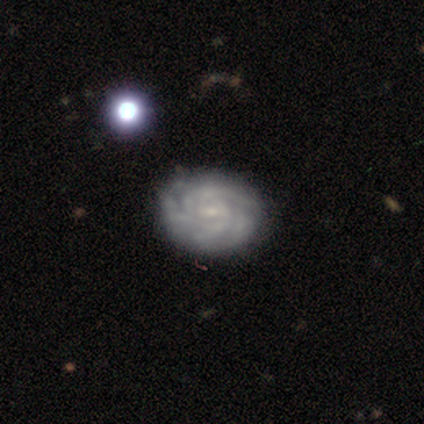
smooth-or-featured: featured or disk: 100% | smooth: 0% | star or artifact: 0%
  disk-edge-on: no: 75% | yes: 25%
    bar: weak: 67% | no: 33% | strong: 0%
    has-spiral-arms: yes: 100% | no: 0%
      spiral-winding: tight: 100% | medium: 0% | loose: 0%
      spiral-arm-count: 3: 33% (tied) | 4: 33% (tied) | can't tell: 33% (tied) | 1: 0% | 2: 0% | more than 4: 0%
    bulge-size: small: 100% | dominant: 0% | large: 0% | moderate: 0% | none: 0%
  merging: none: 100% | minor disturbance: 0% | major disturbance: 0% | merger: 0%